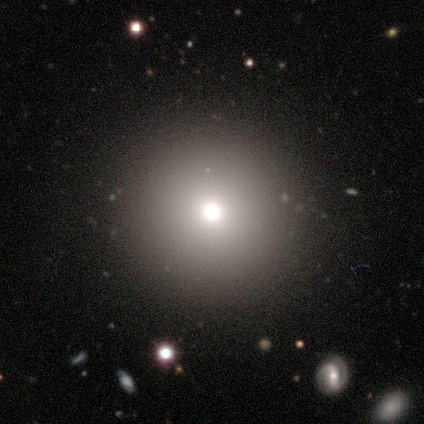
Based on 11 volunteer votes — Overall: smooth (73%). How rounded: round (100%). Merging: none (100%).